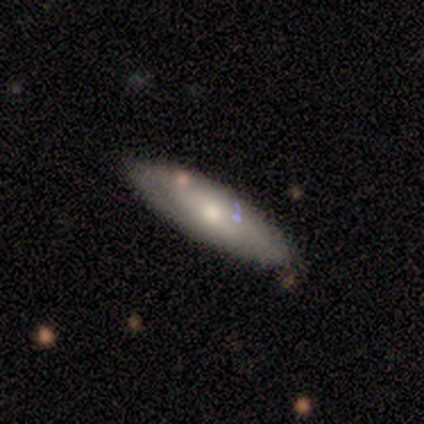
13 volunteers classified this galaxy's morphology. smooth_or_featured: smooth (p=0.69) [alt: featured or disk p=0.31]
how_rounded: in between (p=0.67) [alt: cigar-shaped p=0.33]
merging: none (p=0.69) [alt: minor disturbance p=0.23]